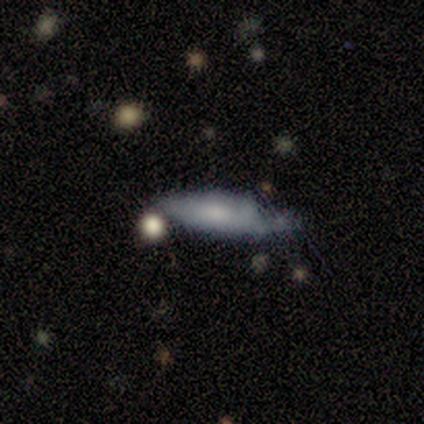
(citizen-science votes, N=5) smooth-or-featured: smooth: 60% | featured or disk: 40% | star or artifact: 0%
  how-rounded: in between: 67% | cigar-shaped: 33% | round: 0%
  merging: none: 40% (tied) | minor disturbance: 40% (tied) | major disturbance: 20% | merger: 0%